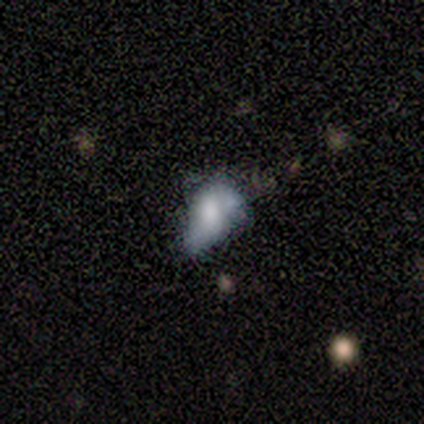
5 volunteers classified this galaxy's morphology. Overall: featured or disk (60%; smooth 40%). Edge-on disk: no (100%). Bar: weak (67%; no 33%). Spiral arms: no (67%; yes 33%). Bulge size: large (33%, tied with moderate and small). Merging: minor disturbance (40%, tied with major disturbance).